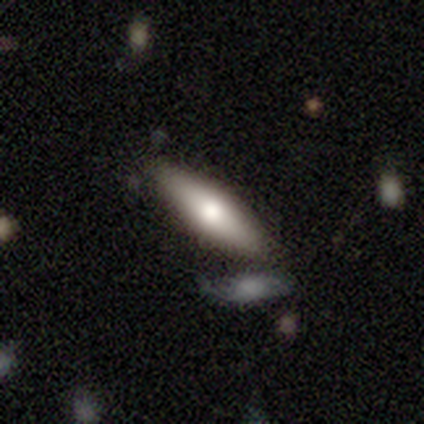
Smooth or featured? 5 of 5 (100%) said smooth. How rounded? 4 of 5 (80%) said cigar-shaped. Merging? 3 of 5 (60%) said none.